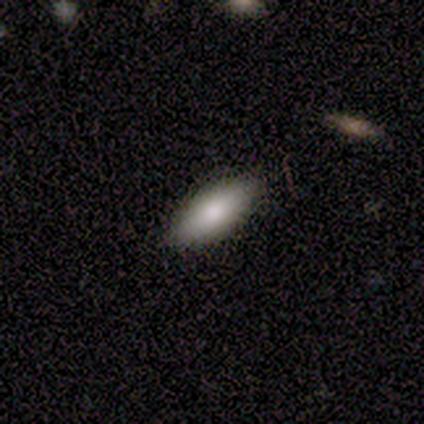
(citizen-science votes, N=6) Smooth or featured? smooth (100%)
How rounded? in between (67%)
Merging? none (100%)